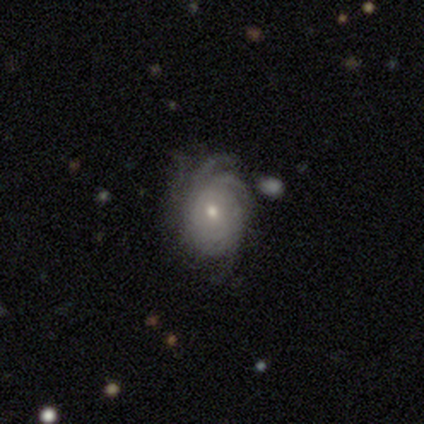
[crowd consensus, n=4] Q: Smooth or featured?
A: featured or disk (100%)
Q: Edge-on disk?
A: no (100%)
Q: Bar?
A: no (100%)
Q: Spiral arms?
A: yes (100%)
Q: Spiral winding?
A: tight (75%); runner-up: medium (25%)
Q: Spiral arm count?
A: 3 (50%); tied with: can't tell (50%)
Q: Bulge size?
A: small (75%); runner-up: dominant (25%)
Q: Merging?
A: none (100%)